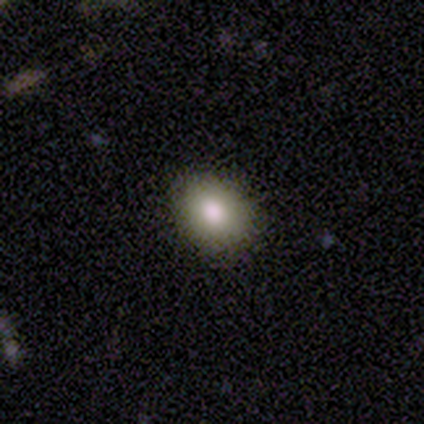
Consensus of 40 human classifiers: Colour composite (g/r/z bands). It shows a smooth galaxy with no disk features (70%) that is round (50%, tied with in between). Merging: none (92%).